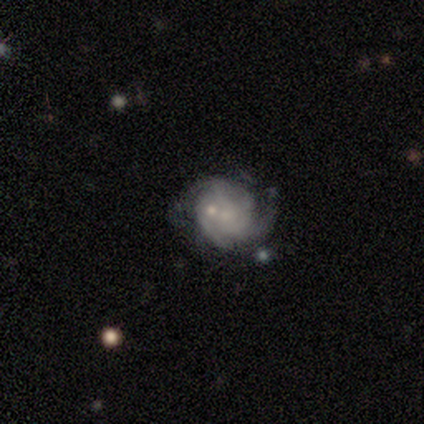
featured or disk 89%, smooth 5%, star or artifact 5%. Down the decision tree: edge-on disk — no (97%); bar — no (75%); spiral arms — yes (97%); spiral arm count — can't tell (32%); spiral winding — tight (58%); bulge size — small (69%); merging — none (43%).